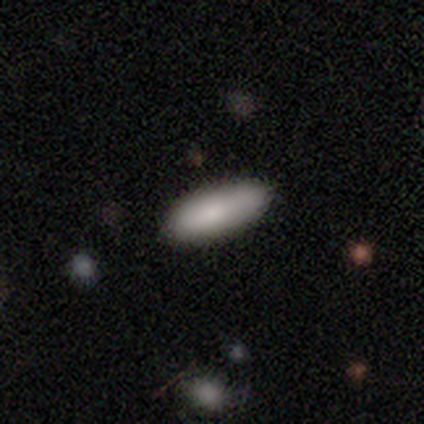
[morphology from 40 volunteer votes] type=smooth (80%); roundness=in between (66%); merging=none (87%).